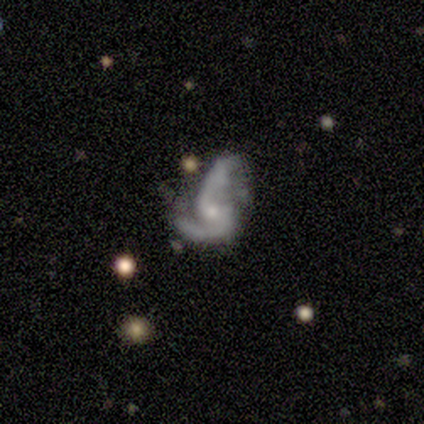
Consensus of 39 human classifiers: Smooth or featured: featured or disk — 90% (smooth — 5%)
Edge-on disk: no — 100%
Bar: no — 60% (weak — 29%)
Spiral arms: yes — 94% (no — 6%)
Spiral winding: loose — 58% (medium — 33%)
Spiral arm count: 2 — 91% (can't tell — 6%)
Bulge size: small — 74% (moderate — 20%)
Merging: major disturbance — 41% (none — 27%)